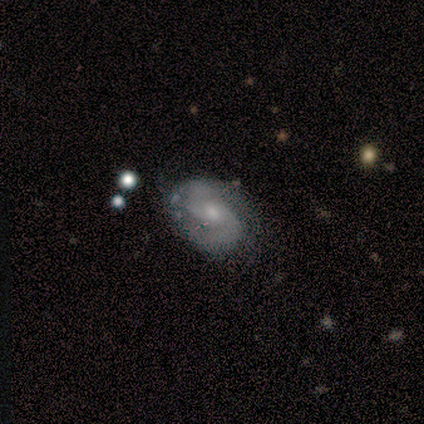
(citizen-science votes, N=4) This is likely a featured or disk galaxy (75%). It is clearly not viewed edge-on (100%). Bar: clearly no (100%). Spiral arm pattern: clearly yes (100%). Spiral arm count: clearly 2 (100%). Spiral winding: marginally tight (33%, tied with medium and loose). Central bulge: likely moderate (67%). Merging: likely none (67%).